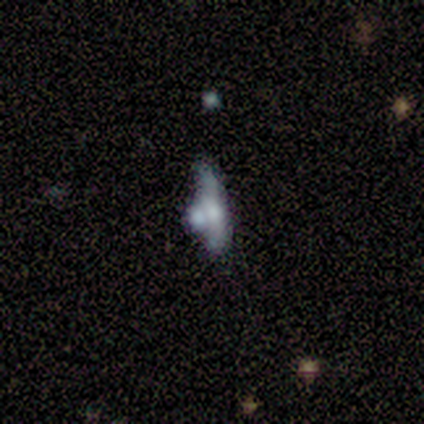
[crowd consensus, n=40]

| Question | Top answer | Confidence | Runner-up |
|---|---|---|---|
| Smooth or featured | featured or disk | 42% | smooth (32%) |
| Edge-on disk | no | 53% | yes (47%) |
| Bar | no | 89% | weak (11%) |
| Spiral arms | no | 89% | yes (11%) |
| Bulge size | moderate | 44% | small (33%) |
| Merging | merger | 40% | none (33%) |